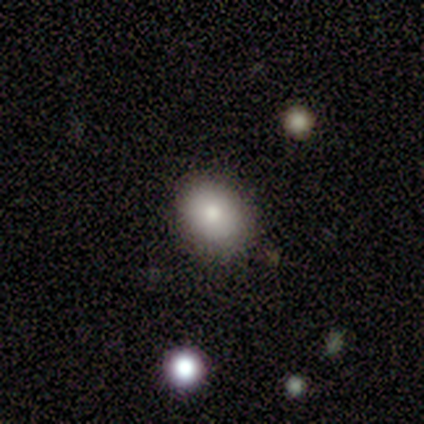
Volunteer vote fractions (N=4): A smooth galaxy with no disk features (75%) that is round (67%). Merging: none (33%, tied with minor disturbance and major disturbance).